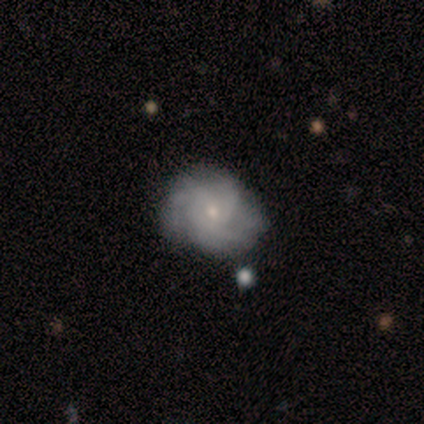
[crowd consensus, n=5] Smooth or featured? featured or disk (60%)
Edge-on disk? no (100%)
Bar? no (100%)
Spiral arms? yes (100%)
Spiral winding? tight (67%)
Spiral arm count? 3 (33%, tied with more than 4 and can't tell)
Bulge size? small (67%)
Merging? minor disturbance (60%)